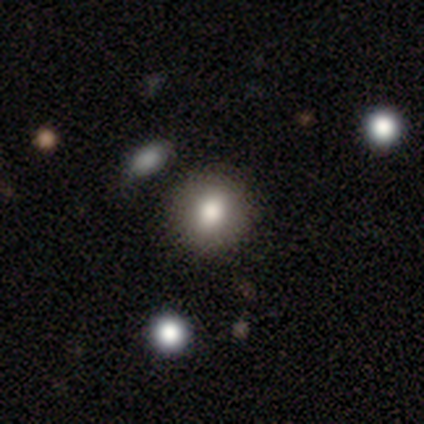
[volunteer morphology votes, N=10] smooth 80%, featured or disk 10%, star or artifact 10%. Down the decision tree: how rounded — round (75%); merging — none (100%).